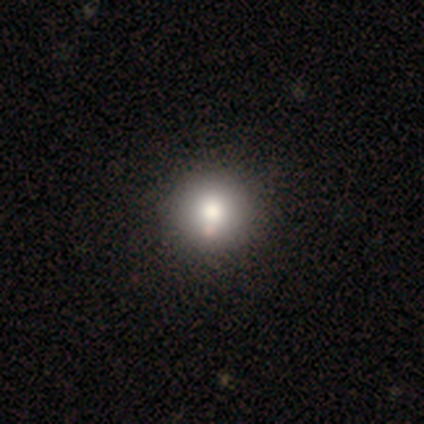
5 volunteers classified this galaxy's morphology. This is clearly a smooth galaxy (80%). How rounded: clearly round (100%). Merging: clearly none (100%).